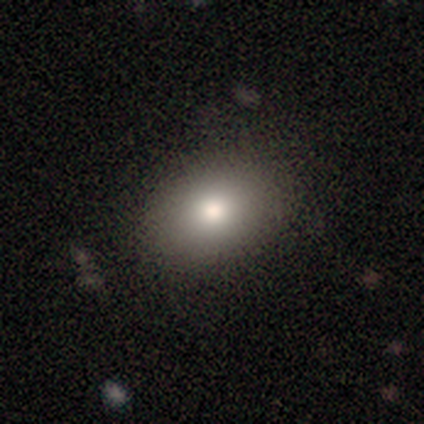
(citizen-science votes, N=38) Morphology: type=smooth (71%); roundness=in between (67%); merging=none (74%).